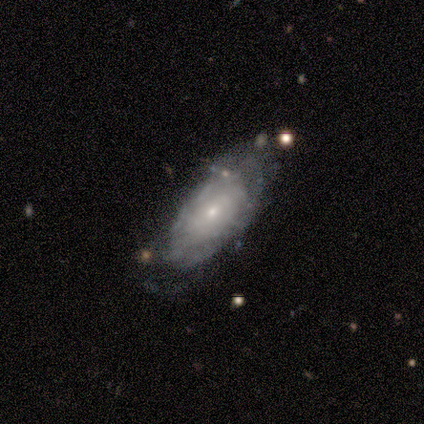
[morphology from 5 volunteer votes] Q: Smooth or featured?
A: featured or disk (100%)
Q: Edge-on disk?
A: no (100%)
Q: Bar?
A: no (60%); runner-up: strong (20%)
Q: Spiral arms?
A: yes (80%); runner-up: no (20%)
Q: Spiral winding?
A: tight (75%); runner-up: medium (25%)
Q: Spiral arm count?
A: can't tell (75%); runner-up: more than 4 (25%)
Q: Bulge size?
A: moderate (40%); tied with: small (40%)
Q: Merging?
A: none (60%); runner-up: minor disturbance (40%)